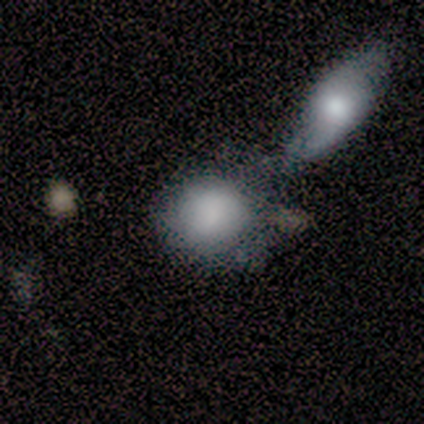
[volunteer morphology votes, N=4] smooth 100%, featured or disk 0%, star or artifact 0%. Down the decision tree: how rounded — round (50%, tied with in between); merging — none (50%).